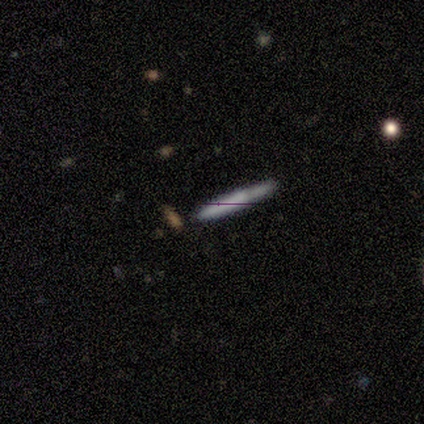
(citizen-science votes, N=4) This is possibly a featured or disk galaxy (50%). It is clearly viewed edge-on (100%). Edge-on bulge: possibly none (50%, tied with rounded). Merging: clearly none (100%).